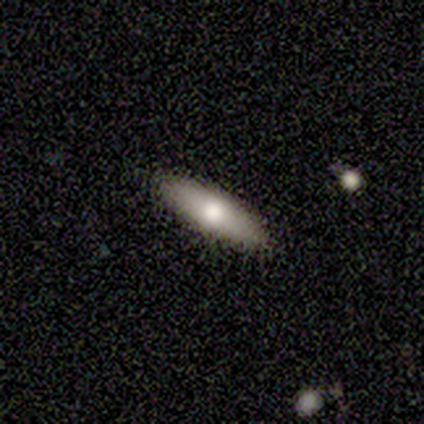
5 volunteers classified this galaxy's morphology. Smooth or featured? 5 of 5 (100%) said smooth. How rounded? 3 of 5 (60%) said cigar-shaped. Merging? 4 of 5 (80%) said none.